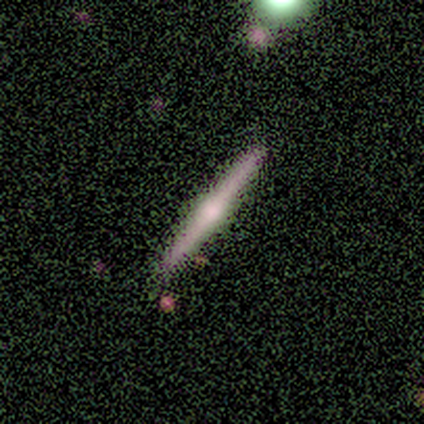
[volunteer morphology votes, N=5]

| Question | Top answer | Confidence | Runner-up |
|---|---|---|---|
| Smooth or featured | featured or disk | 60% | smooth (20%) |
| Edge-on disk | yes | 100% | — |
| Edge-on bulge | rounded | 100% | — |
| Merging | none | 100% | — |